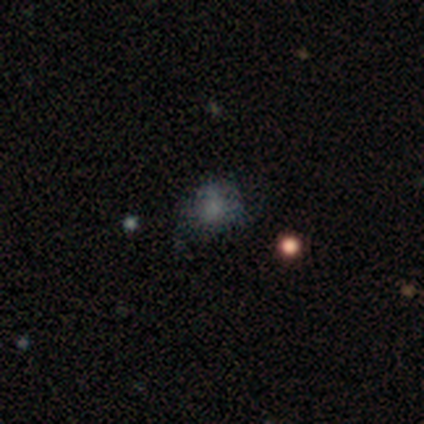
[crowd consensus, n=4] Smooth or featured: smooth — 50% (featured or disk — 25%)
How rounded: round — 50% (tied with in between — 50%)
Merging: major disturbance — 67% (none — 33%)